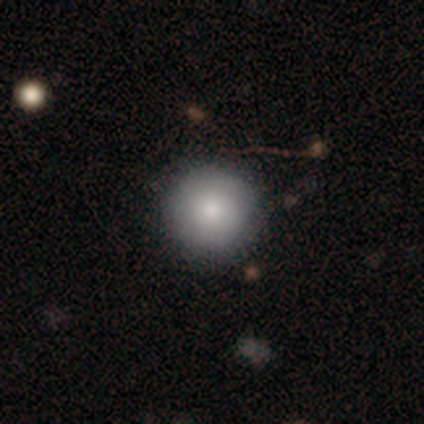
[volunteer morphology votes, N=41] type=smooth (78%); roundness=round (100%); merging=none (56%).